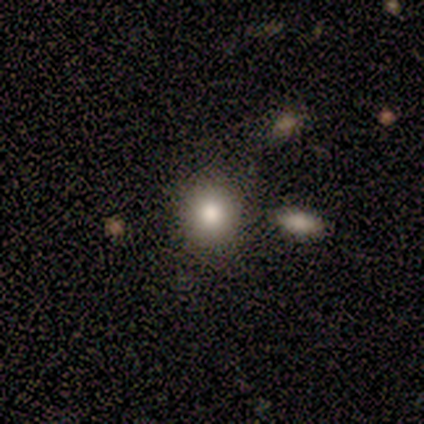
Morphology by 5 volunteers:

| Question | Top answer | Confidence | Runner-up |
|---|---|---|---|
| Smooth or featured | smooth | 80% | featured or disk (20%) |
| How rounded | round | 100% | — |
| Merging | none | 100% | — |